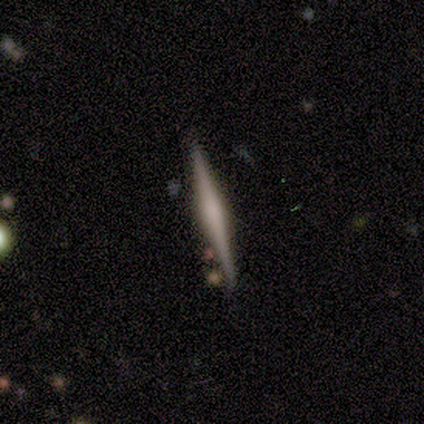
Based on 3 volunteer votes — Smooth or featured? 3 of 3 (100%) said featured or disk. Edge-on disk? 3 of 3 (100%) said yes. Edge-on bulge? 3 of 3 (100%) said rounded. Merging? 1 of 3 (33%, tied with minor disturbance and merger) said none.